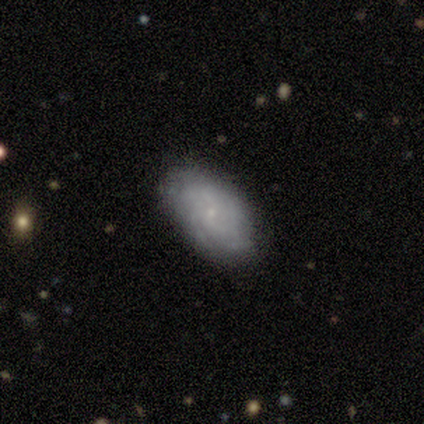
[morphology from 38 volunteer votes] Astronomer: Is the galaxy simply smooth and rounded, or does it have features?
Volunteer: featured or disk — 66%.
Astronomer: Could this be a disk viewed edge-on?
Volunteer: no — 92%.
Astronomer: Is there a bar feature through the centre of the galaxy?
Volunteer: no — 83%.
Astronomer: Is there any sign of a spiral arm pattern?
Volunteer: yes — 70%.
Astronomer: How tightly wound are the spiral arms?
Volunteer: tight — 75%.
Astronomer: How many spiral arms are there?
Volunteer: can't tell — 88%.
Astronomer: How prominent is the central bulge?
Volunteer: small — 91%.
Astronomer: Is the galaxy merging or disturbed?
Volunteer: none — 69%.